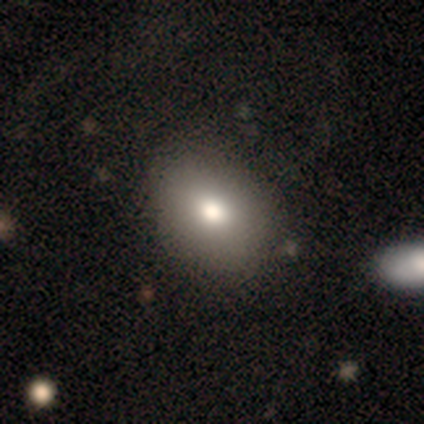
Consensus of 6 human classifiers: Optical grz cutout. It shows a smooth galaxy with no disk features (83%) that is in between round and cigar-shaped (60%). Merging: none (67%).